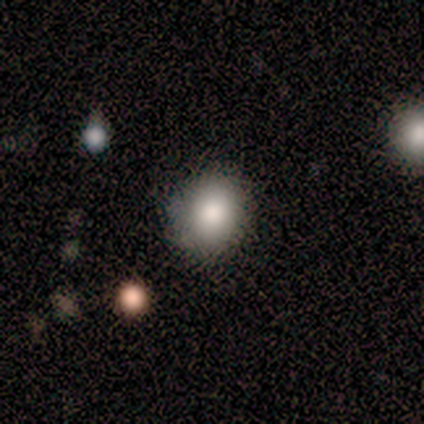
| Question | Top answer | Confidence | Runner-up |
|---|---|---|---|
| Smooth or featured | smooth | 100% | — |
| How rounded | round | 100% | — |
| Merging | none | 100% | — |